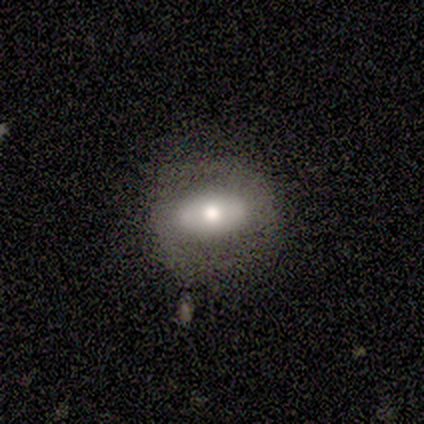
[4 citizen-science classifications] Q: Smooth or featured?
A: smooth (75%); runner-up: featured or disk (25%)
Q: How rounded?
A: round (67%); runner-up: in between (33%)
Q: Merging?
A: none (75%); runner-up: minor disturbance (25%)